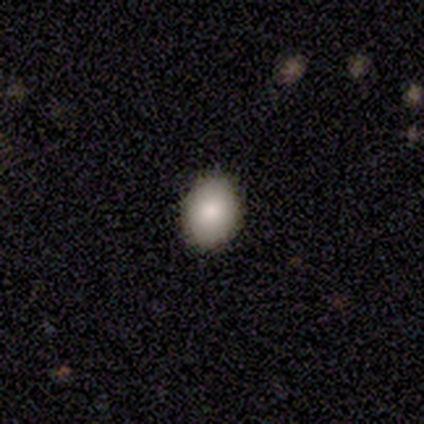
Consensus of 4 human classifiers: Smooth or featured?
  - smooth: 75% *
  - star or artifact: 25%
  - featured or disk: 0%
How rounded?
  - in between: 67% *
  - round: 33%
  - cigar-shaped: 0%
Merging?
  - none: 100% *
  - minor disturbance: 0%
  - major disturbance: 0%
  - merger: 0%